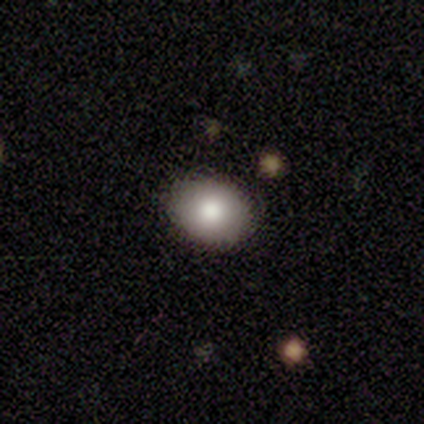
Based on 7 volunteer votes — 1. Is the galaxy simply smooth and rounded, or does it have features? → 71% smooth, 29% featured or disk, 0% star or artifact.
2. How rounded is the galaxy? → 60% in between, 40% round, 0% cigar-shaped.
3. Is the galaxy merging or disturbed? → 100% none, 0% minor disturbance, 0% major disturbance, 0% merger.